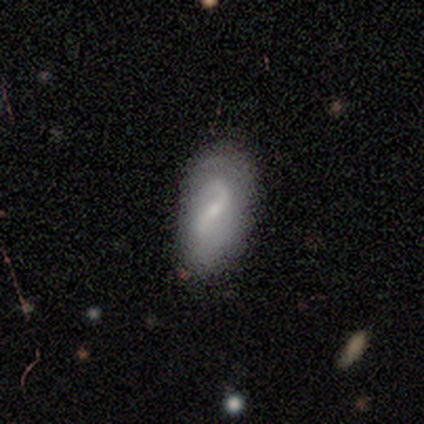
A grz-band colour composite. It shows a featured or disk galaxy (75%) with no bar (67%), 2 (100%) loose (100%) spiral arms (100%) and a small central bulge (67%). Merging: none (100%).